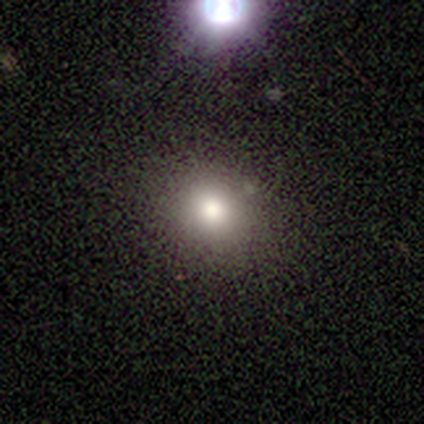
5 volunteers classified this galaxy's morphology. Smooth or featured: smooth — 80% (star or artifact — 20%)
How rounded: round — 100%
Merging: none — 100%